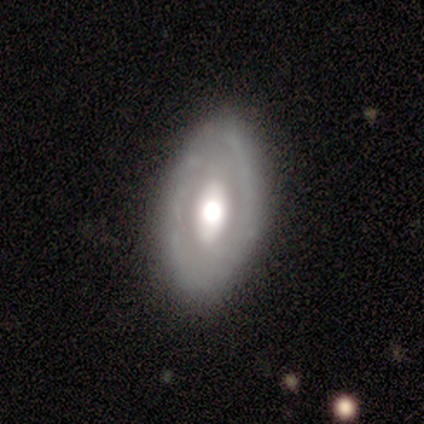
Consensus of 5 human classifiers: Morphology: type=featured or disk (60%); edge-on=no (100%); bar=no (100%); spiral arms=no (67%); bulge=moderate (100%); merging=none (80%).